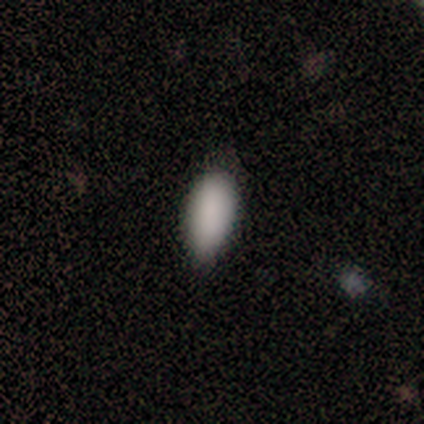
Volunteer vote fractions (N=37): A smooth galaxy with no disk features (95%) that is in between round and cigar-shaped (80%). Merging: none (70%).